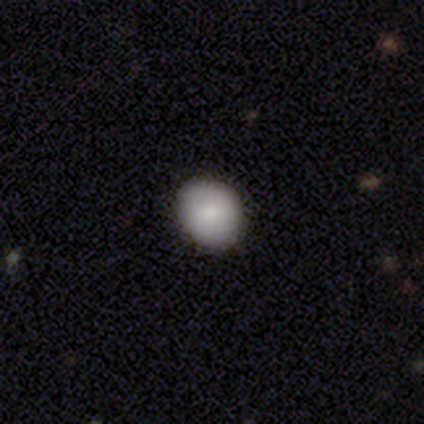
This is clearly a smooth galaxy (87%). How rounded: clearly round (82%). Merging: clearly none (94%).